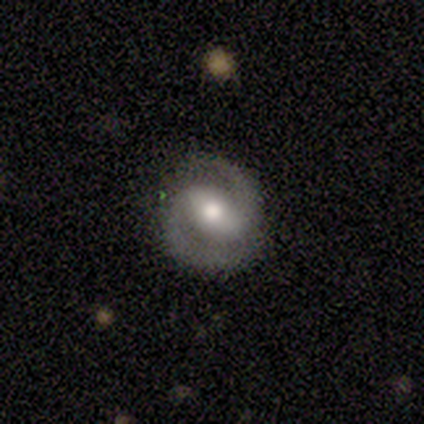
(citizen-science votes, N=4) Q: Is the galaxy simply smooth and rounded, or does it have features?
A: featured or disk — 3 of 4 (75%).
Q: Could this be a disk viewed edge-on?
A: no — 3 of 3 (100%).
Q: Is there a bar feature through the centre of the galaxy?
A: strong — 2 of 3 (67%).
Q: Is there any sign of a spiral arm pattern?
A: yes — 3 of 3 (100%).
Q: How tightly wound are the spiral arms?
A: medium — 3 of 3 (100%).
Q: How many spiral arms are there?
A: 2 — 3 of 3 (100%).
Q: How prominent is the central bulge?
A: moderate — 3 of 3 (100%).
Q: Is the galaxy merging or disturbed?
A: none — 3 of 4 (75%).